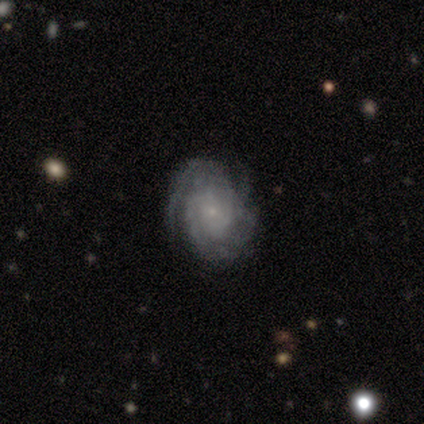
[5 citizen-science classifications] smooth_or_featured: featured or disk (p=1.00)
disk_edge_on: no (p=0.80) [alt: yes p=0.20]
bar: no (p=0.50) [alt: strong p=0.25]
has_spiral_arms: yes (p=1.00)
spiral_winding: tight (p=1.00)
spiral_arm_count: can't tell (p=0.75) [alt: 3 p=0.25]
bulge_size: small (p=1.00)
merging: none (p=1.00)